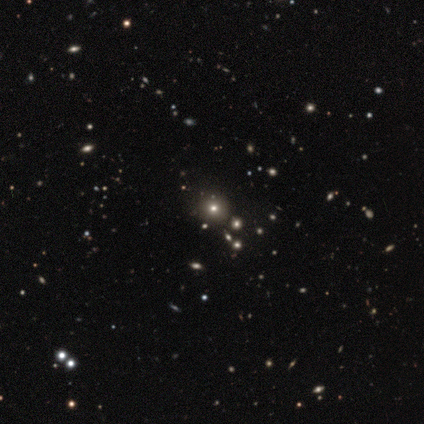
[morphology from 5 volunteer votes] Smooth or featured?
  - star or artifact: 60% *
  - smooth: 40%
  - featured or disk: 0%